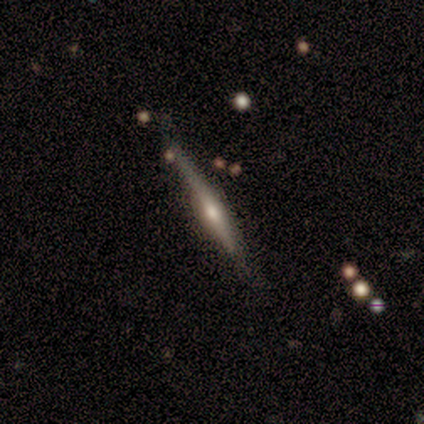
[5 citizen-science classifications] Smooth or featured? featured or disk (100%)
Edge-on disk? yes (100%)
Edge-on bulge? rounded (100%)
Merging? none (100%)